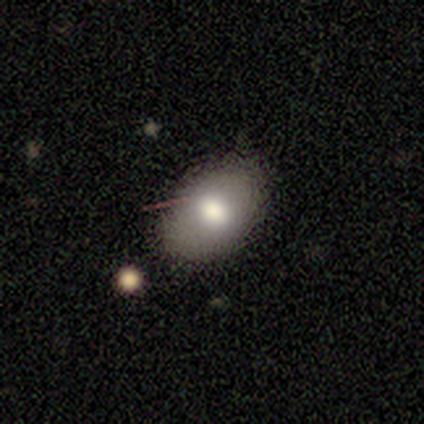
Smooth or featured: smooth — 75% (featured or disk — 19%)
How rounded: in between — 78% (round — 19%)
Merging: none — 74% (minor disturbance — 24%)